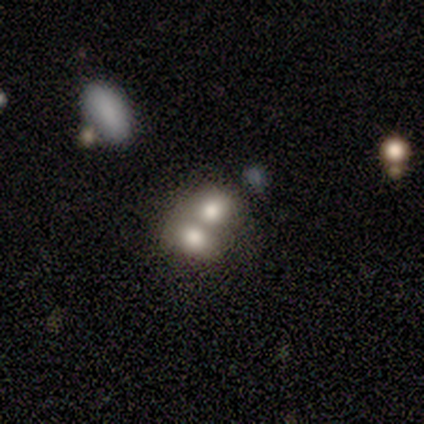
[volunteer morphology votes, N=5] Smooth or featured? smooth (100%)
How rounded? round (80%)
Merging? merger (80%)